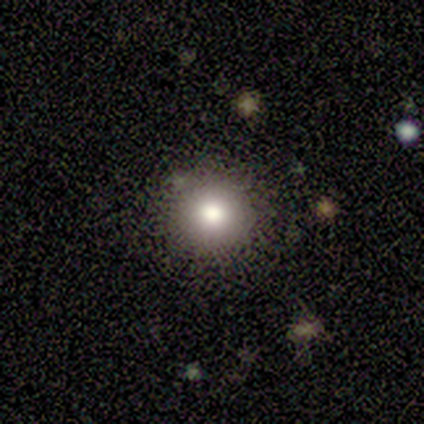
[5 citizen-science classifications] smooth-or-featured: smooth: 40% (tied) | star or artifact: 40% (tied) | featured or disk: 20%
  how-rounded: round: 100% | in between: 0% | cigar-shaped: 0%
  merging: none: 67% | minor disturbance: 33% | major disturbance: 0% | merger: 0%